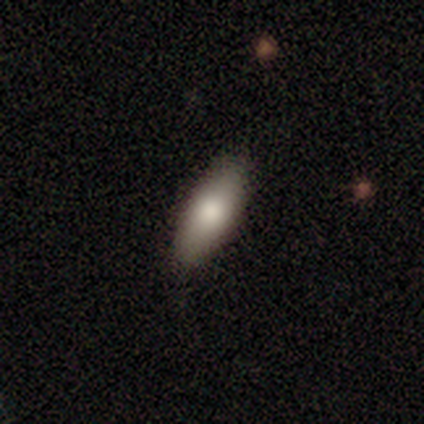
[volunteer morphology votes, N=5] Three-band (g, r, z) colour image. It shows a smooth galaxy with no disk features (100%) that is in between round and cigar-shaped (80%). Merging: none (100%).